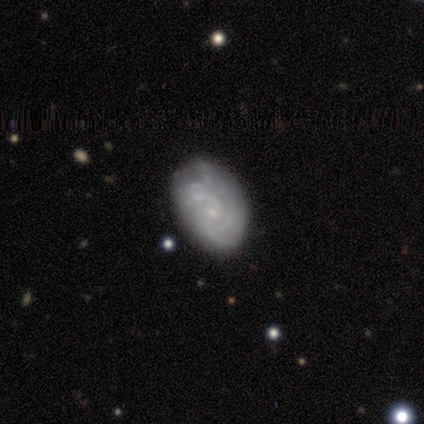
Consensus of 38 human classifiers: This appears to be a featured or disk galaxy (74%) with no bar (68%), tight (75%) spiral arms (86%) and a small central bulge (82%). Merging: none (51%).